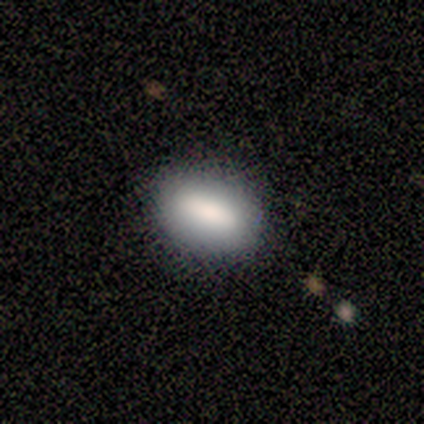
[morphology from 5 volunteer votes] type=smooth (60%); roundness=in between (100%); merging=none (100%).